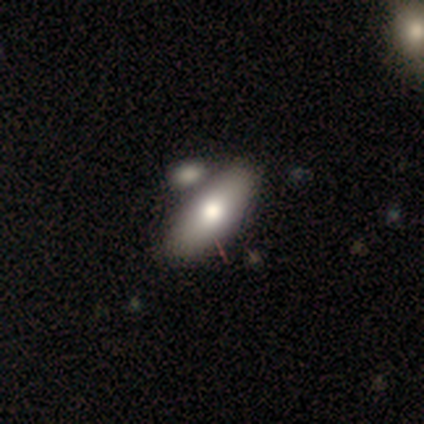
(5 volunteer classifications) smooth_or_featured: smooth (p=0.60) [alt: featured or disk p=0.40]
how_rounded: in between (p=1.00)
merging: none (p=0.60) [alt: minor disturbance p=0.20]